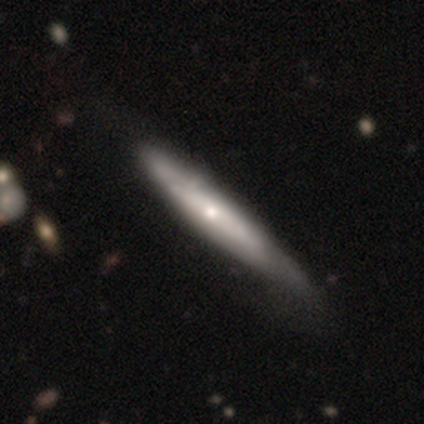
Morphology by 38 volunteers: type=smooth (50%, tied with featured or disk); roundness=cigar-shaped (79%); merging=none (34%).